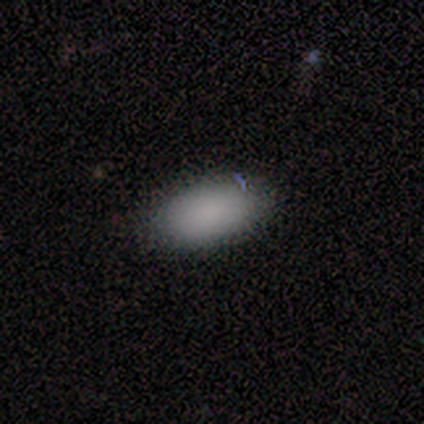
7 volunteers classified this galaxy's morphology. Overall: smooth (100%). How rounded: in between (86%). Merging: none (100%).